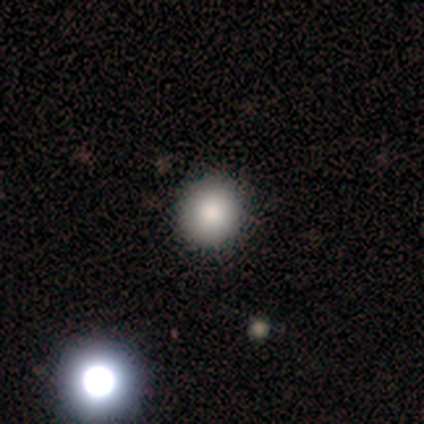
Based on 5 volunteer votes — Smooth or featured? smooth (100%)
How rounded? round (80%)
Merging? none (100%)